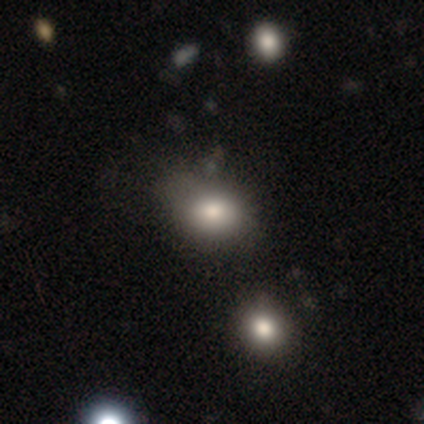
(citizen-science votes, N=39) Q: Smooth or featured?
A: smooth (79%); runner-up: star or artifact (13%)
Q: How rounded?
A: in between (61%); runner-up: round (35%)
Q: Merging?
A: none (68%); runner-up: minor disturbance (24%)